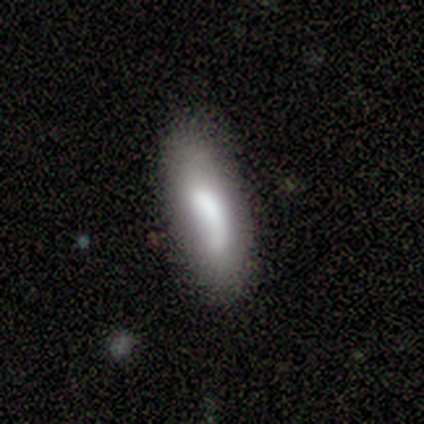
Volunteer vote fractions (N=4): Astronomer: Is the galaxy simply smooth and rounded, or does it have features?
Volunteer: smooth — 75%.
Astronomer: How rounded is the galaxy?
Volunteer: cigar-shaped — 67%.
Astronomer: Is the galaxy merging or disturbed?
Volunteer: none — 50%.